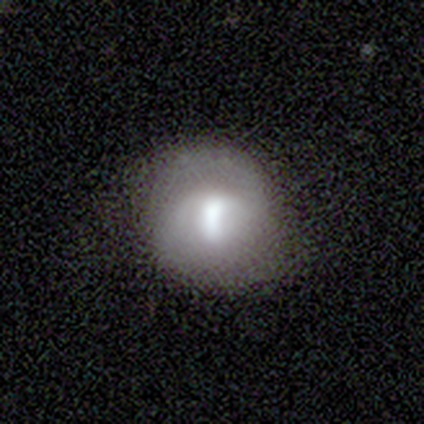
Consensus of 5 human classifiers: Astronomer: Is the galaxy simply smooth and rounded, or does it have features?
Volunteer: featured or disk — 80%.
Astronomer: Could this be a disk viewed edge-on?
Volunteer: no — 100%.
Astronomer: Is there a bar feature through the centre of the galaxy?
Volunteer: strong — 75%.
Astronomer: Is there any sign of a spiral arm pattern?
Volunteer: yes — 50%, tied with no at 50%.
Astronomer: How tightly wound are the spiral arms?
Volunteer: medium — 50%, tied with loose at 50%.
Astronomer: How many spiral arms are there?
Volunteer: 2 — 50%, tied with can't tell at 50%.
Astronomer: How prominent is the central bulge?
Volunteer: large — 75%.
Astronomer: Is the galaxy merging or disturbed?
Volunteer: none — 60%.